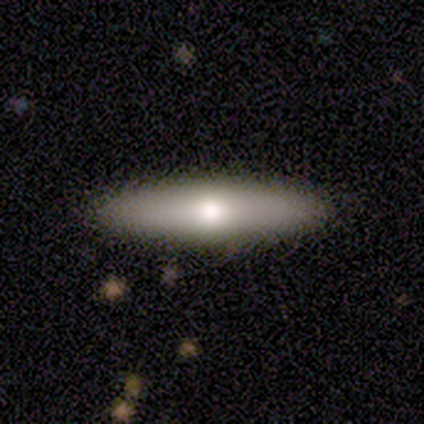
Smooth or featured?
  - smooth: 80% *
  - star or artifact: 20%
  - featured or disk: 0%
How rounded?
  - cigar-shaped: 100% *
  - round: 0%
  - in between: 0%
Merging?
  - none: 100% *
  - minor disturbance: 0%
  - major disturbance: 0%
  - merger: 0%